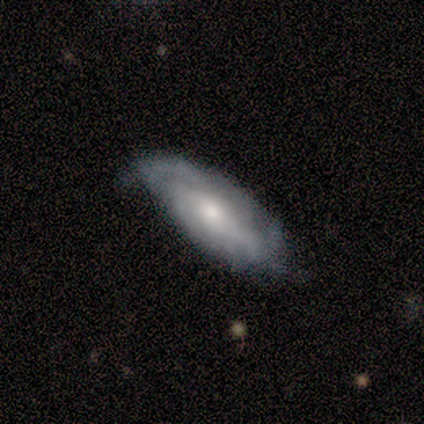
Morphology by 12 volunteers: featured or disk 92%, smooth 8%, star or artifact 0%. Down the decision tree: edge-on disk — no (91%); bar — weak (40%, tied with no); spiral arms — yes (100%); spiral arm count — can't tell (50%); spiral winding — medium (50%); bulge size — moderate (40%, tied with small); merging — none (67%).